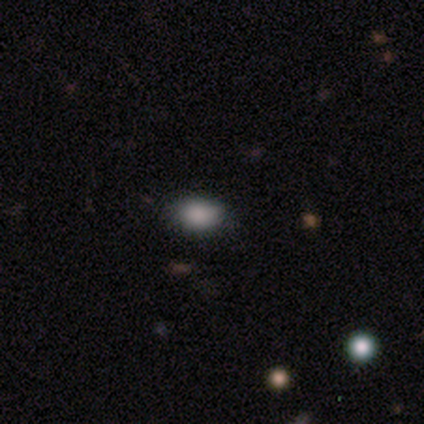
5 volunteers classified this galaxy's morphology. Overall: smooth (100%). How rounded: in between (80%). Merging: none (60%; minor disturbance 40%).